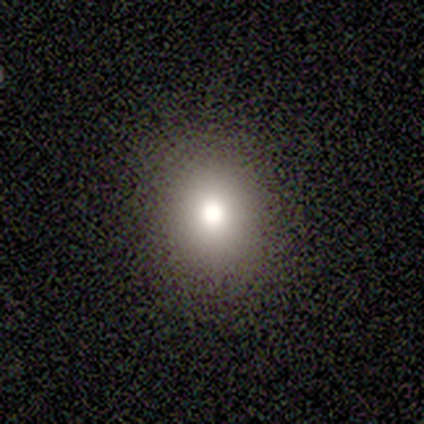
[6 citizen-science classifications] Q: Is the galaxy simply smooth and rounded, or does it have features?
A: smooth — 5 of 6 (83%).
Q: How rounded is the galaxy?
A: round — 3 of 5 (60%).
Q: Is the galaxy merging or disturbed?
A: none — 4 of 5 (80%).